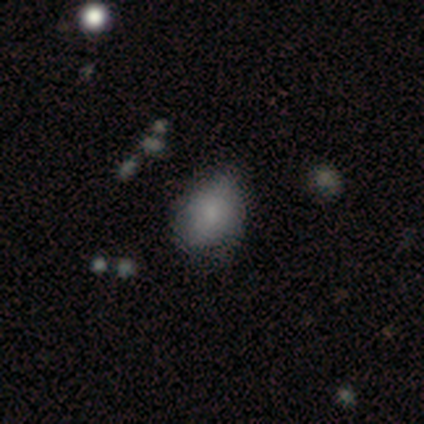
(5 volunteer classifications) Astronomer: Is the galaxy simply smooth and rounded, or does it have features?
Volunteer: smooth — 80%.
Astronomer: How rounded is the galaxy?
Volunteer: in between — 75%.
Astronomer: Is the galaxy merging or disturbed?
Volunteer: none — 50%.